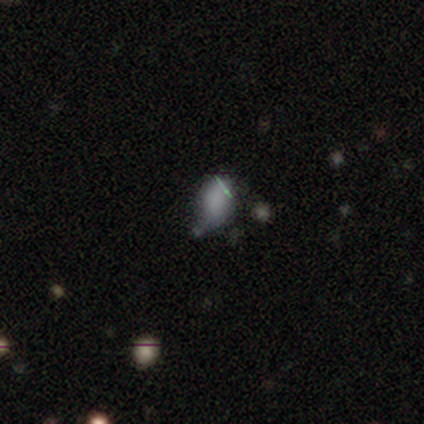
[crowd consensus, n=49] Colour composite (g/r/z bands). It shows a smooth galaxy with no disk features (59%) that is in between round and cigar-shaped (97%). Merging: minor disturbance (46%).